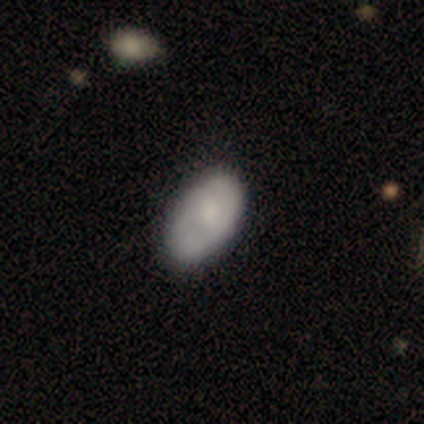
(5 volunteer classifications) Smooth or featured? 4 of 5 (80%) said smooth. How rounded? 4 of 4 (100%) said in between. Merging? 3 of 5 (60%) said none.